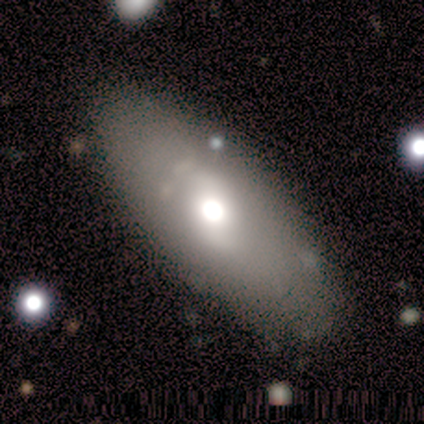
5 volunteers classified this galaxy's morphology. A smooth galaxy with no disk features (100%) that is in between round and cigar-shaped (100%). Merging: none (80%).